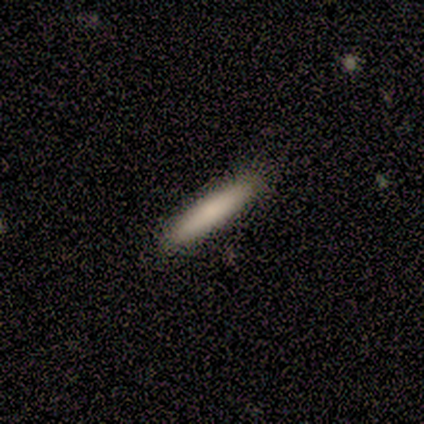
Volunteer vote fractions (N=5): A smooth galaxy with no disk features (40%, tied with featured or disk) that is cigar-shaped (100%).

Vote fractions:
- Smooth or featured? smooth: 40% (tied) / featured or disk: 40% (tied) / star or artifact: 20%
- How rounded? cigar-shaped: 100% / round: 0% / in between: 0%
- Merging? none: 75% / minor disturbance: 25% / major disturbance: 0% / merger: 0%